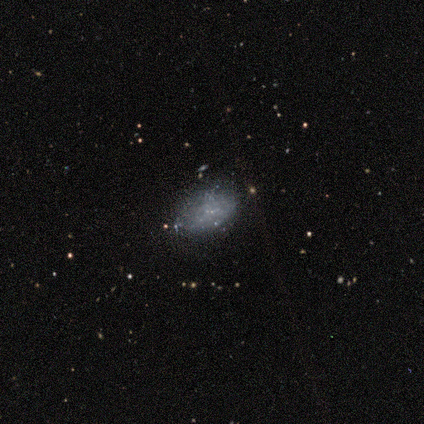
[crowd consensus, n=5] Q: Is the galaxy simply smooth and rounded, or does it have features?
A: smooth — 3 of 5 (60%).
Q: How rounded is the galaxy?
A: in between — 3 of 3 (100%).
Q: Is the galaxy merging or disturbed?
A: none — 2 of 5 (40%, tied with minor disturbance).